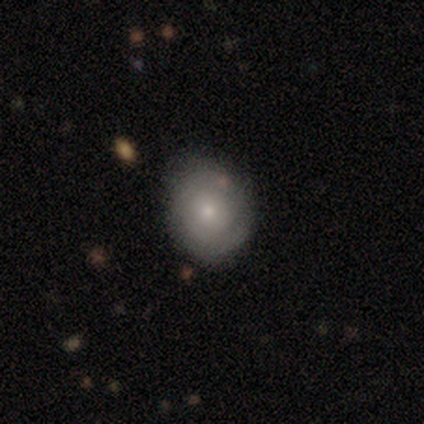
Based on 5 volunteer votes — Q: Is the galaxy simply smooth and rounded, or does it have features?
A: featured or disk — 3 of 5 (60%).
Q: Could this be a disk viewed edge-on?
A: no — 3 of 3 (100%).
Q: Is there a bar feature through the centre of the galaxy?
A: no — 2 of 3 (67%).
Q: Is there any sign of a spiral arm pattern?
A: yes — 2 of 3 (67%).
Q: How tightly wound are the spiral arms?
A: tight — 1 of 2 (50%, tied with medium).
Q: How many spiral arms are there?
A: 2 — 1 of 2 (50%, tied with 3).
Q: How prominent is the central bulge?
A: small — 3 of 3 (100%).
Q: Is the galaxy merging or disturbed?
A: none — 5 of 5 (100%).